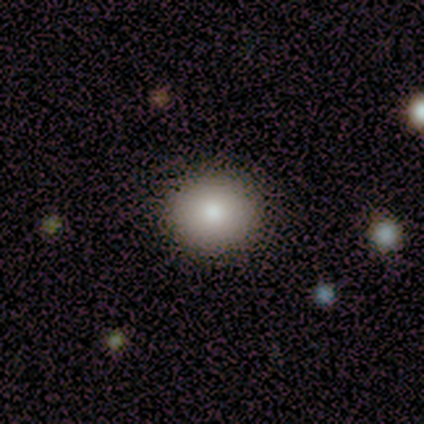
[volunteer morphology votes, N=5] Volunteers were most divided on "smooth or featured": smooth: 60%, featured or disk: 20%, star or artifact: 20%. More confident: how rounded — round (100%); merging — none (100%).